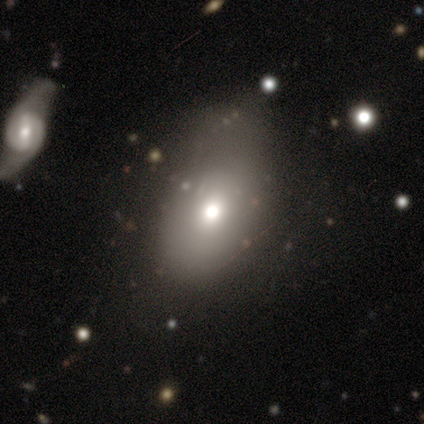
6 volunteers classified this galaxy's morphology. Q: Smooth or featured?
A: smooth (67%); runner-up: featured or disk (17%)
Q: How rounded?
A: in between (100%)
Q: Merging?
A: none (80%); runner-up: minor disturbance (20%)